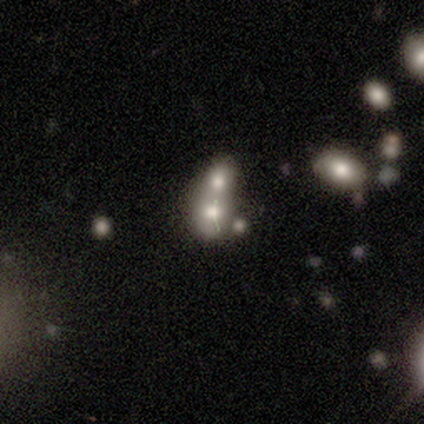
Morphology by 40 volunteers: A smooth galaxy with no disk features (62%) that is round (60%).

Vote fractions:
- Smooth or featured? smooth: 62% / featured or disk: 25% / star or artifact: 12%
- How rounded? round: 60% / in between: 40% / cigar-shaped: 0%
- Merging? merger: 71% / none: 0% / minor disturbance: 0% / major disturbance: 0%